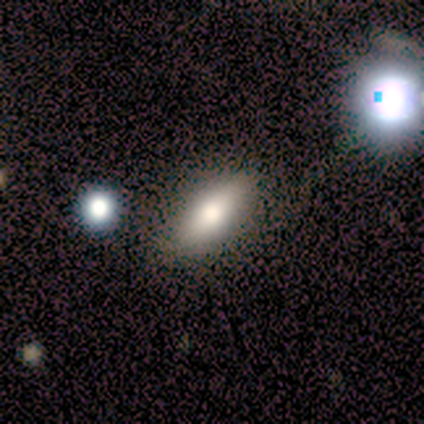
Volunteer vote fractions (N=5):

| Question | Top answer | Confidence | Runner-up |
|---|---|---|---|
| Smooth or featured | smooth | 80% | star or artifact (20%) |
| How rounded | in between | 50% | tied: cigar-shaped (50%) |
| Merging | none | 100% | — |